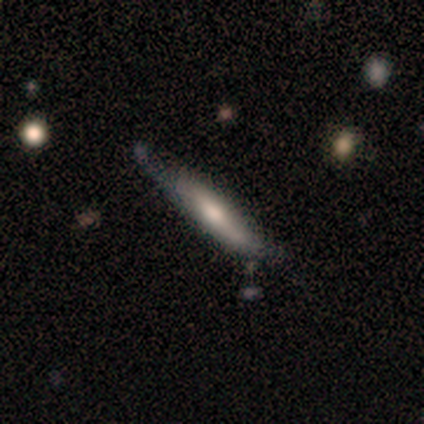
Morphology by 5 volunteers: smooth-or-featured: featured or disk: 60% | smooth: 40% | star or artifact: 0%
  disk-edge-on: yes: 100% | no: 0%
    edge-on-bulge: rounded: 67% | boxy: 33% | none: 0%
  merging: none: 80% | major disturbance: 20% | minor disturbance: 0% | merger: 0%